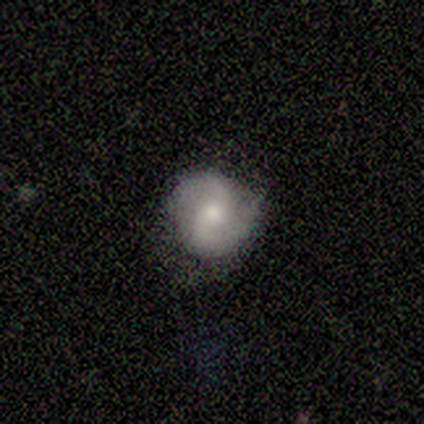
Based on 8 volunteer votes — A featured or disk galaxy (62%) with no bar (60%), 2 (100%) medium (60%) spiral arms (100%) and a moderate central bulge (60%).

Vote fractions:
- Smooth or featured? featured or disk: 62% / smooth: 25% / star or artifact: 12%
- Edge-on disk? no: 100% / yes: 0%
- Bar? no: 60% / weak: 40% / strong: 0%
- Spiral arms? yes: 100% / no: 0%
- Spiral winding? medium: 60% / tight: 20% / loose: 20%
- Spiral arm count? 2: 100% / 1: 0% / 3: 0% / 4: 0% / more than 4: 0% / can't tell: 0%
- Bulge size? moderate: 60% / small: 40% / dominant: 0% / large: 0% / none: 0%
- Merging? none: 100% / minor disturbance: 0% / major disturbance: 0% / merger: 0%